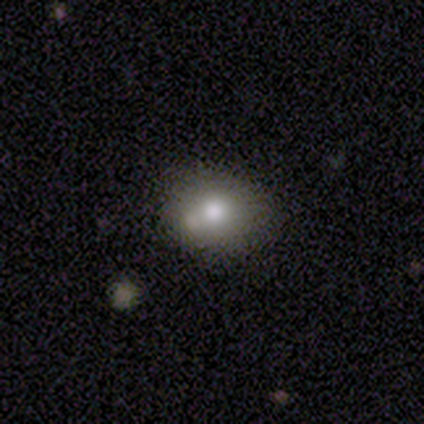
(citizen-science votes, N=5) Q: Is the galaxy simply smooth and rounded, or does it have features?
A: smooth — 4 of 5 (80%).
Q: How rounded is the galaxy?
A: round — 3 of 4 (75%).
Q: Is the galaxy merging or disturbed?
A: none — 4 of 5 (80%).